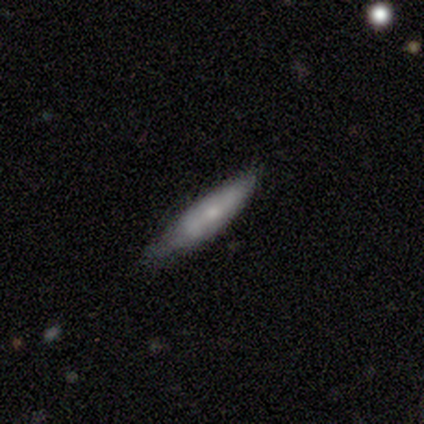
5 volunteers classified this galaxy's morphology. A smooth galaxy with no disk features (100%) that is cigar-shaped (100%).

Vote fractions:
- Smooth or featured? smooth: 100% / featured or disk: 0% / star or artifact: 0%
- How rounded? cigar-shaped: 100% / round: 0% / in between: 0%
- Merging? none: 80% / minor disturbance: 20% / major disturbance: 0% / merger: 0%